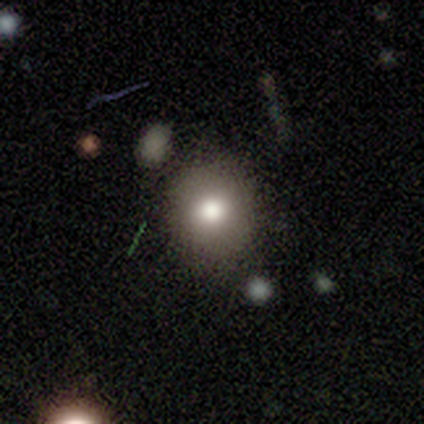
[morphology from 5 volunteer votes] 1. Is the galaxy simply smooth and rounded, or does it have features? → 80% smooth, 20% star or artifact, 0% featured or disk.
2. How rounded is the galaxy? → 75% round, 25% in between, 0% cigar-shaped.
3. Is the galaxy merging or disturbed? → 100% none, 0% minor disturbance, 0% major disturbance, 0% merger.